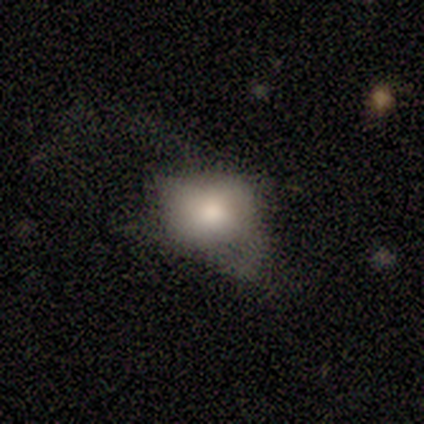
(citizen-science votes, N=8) Smooth or featured: smooth — 62% (featured or disk — 25%)
How rounded: in between — 80% (round — 20%)
Merging: minor disturbance — 71% (major disturbance — 29%)